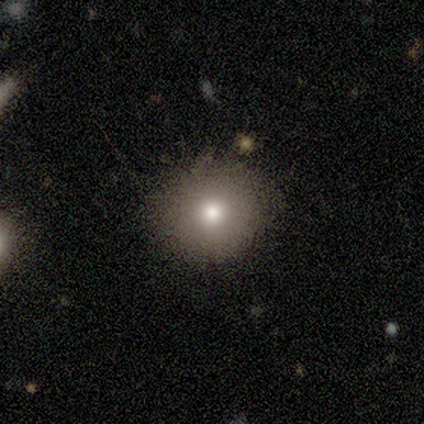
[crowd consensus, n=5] smooth-or-featured: smooth: 60% | star or artifact: 40% | featured or disk: 0%
  how-rounded: round: 100% | in between: 0% | cigar-shaped: 0%
  merging: none: 100% | minor disturbance: 0% | major disturbance: 0% | merger: 0%